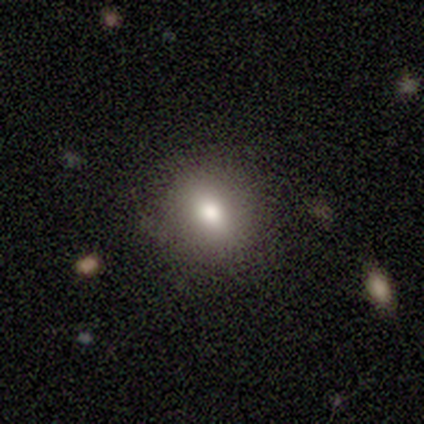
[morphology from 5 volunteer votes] smooth-or-featured: smooth: 60% | star or artifact: 40% | featured or disk: 0%
  how-rounded: round: 100% | in between: 0% | cigar-shaped: 0%
  merging: none: 67% | major disturbance: 33% | minor disturbance: 0% | merger: 0%